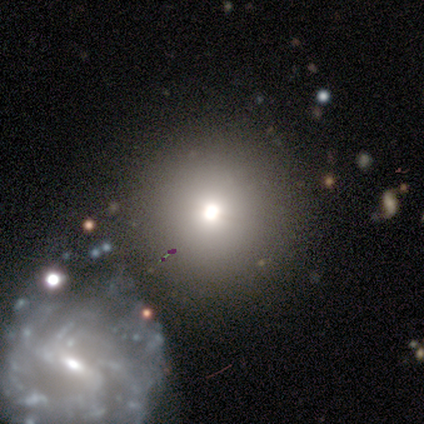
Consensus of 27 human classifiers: This appears to be a smooth galaxy with no disk features (41%) that is round (82%). Merging: none (72%).